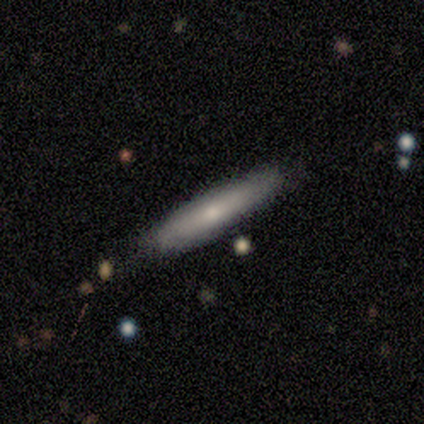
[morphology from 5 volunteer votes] Smooth or featured?
  - smooth: 100% *
  - featured or disk: 0%
  - star or artifact: 0%
How rounded?
  - cigar-shaped: 80% *
  - in between: 20%
  - round: 0%
Merging?
  - none: 80% *
  - minor disturbance: 20%
  - major disturbance: 0%
  - merger: 0%